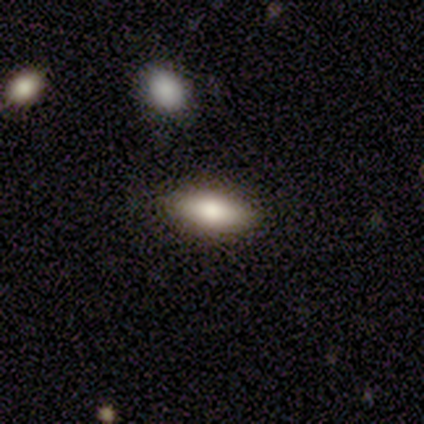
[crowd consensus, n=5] This is clearly a smooth galaxy (80%). How rounded: likely in between (75%). Merging: likely none (75%).